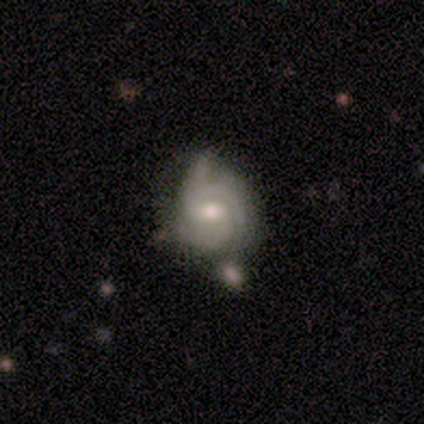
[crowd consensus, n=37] Smooth or featured? featured or disk (84%)
Edge-on disk? no (97%)
Bar? no (53%)
Spiral arms? yes (100%)
Spiral winding? tight (73%)
Spiral arm count? 3 (40%)
Bulge size? moderate (57%)
Merging? none (50%)